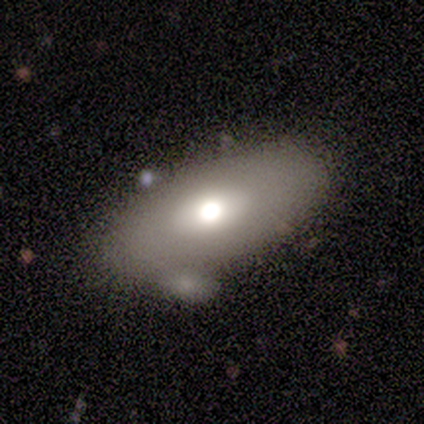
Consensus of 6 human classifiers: Morphology: type=smooth (50%, tied with featured or disk); roundness=in between (100%); merging=none (67%).